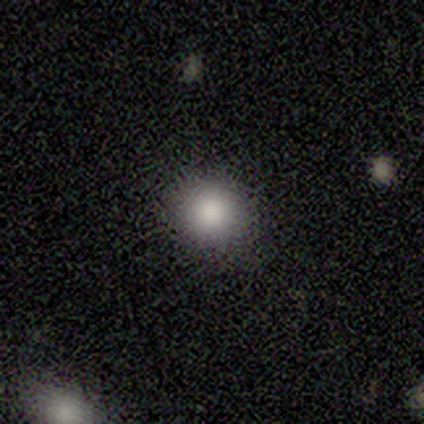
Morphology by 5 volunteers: Smooth or featured? smooth (100%)
How rounded? round (100%)
Merging? none (60%)